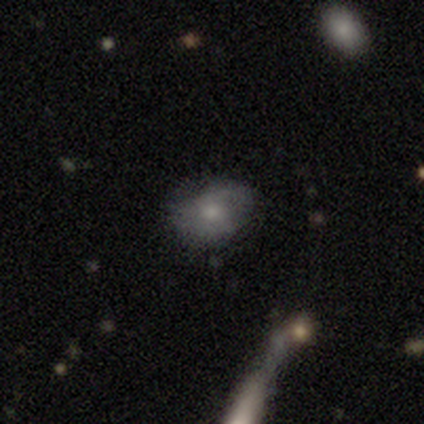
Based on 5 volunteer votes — smooth_or_featured: smooth (p=0.60) [alt: featured or disk p=0.20]
how_rounded: in between (p=0.67) [alt: round p=0.33]
merging: none (p=0.25) [tied with: minor disturbance p=0.25, major disturbance p=0.25, merger p=0.25]